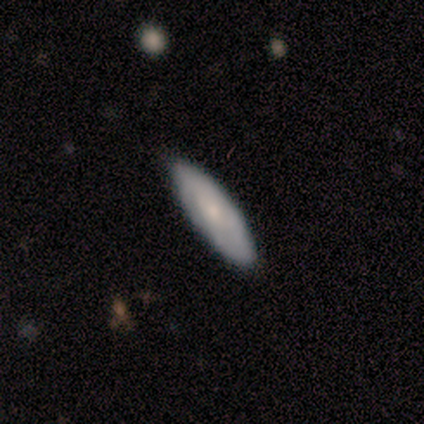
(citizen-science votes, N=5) Smooth or featured? smooth (40%, tied with featured or disk)
How rounded? in between (100%)
Merging? none (100%)